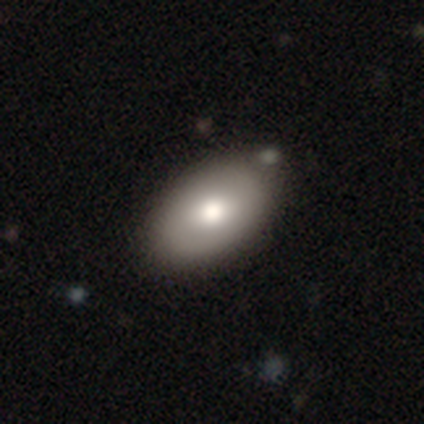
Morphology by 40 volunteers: This appears to be a smooth galaxy with no disk features (72%) that is in between round and cigar-shaped (100%). Merging: none (62%).